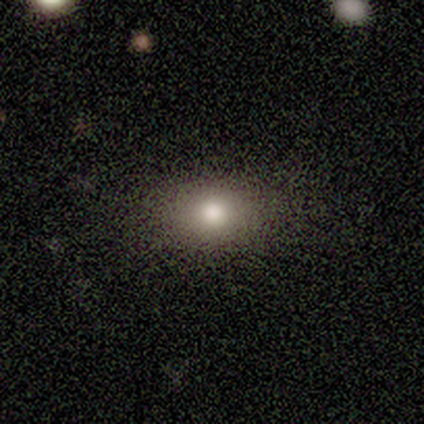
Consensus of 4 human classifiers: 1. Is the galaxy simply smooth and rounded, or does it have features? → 50% smooth, 25% featured or disk, 25% star or artifact.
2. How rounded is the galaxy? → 50% round (tied), 50% in between (tied), 0% cigar-shaped.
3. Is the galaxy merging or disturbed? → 100% none, 0% minor disturbance, 0% major disturbance, 0% merger.